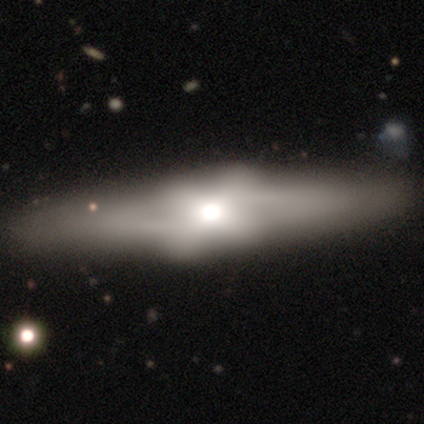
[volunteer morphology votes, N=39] Smooth or featured?
  - featured or disk: 54% *
  - smooth: 36%
  - star or artifact: 10%
Edge-on disk?
  - yes: 67% *
  - no: 33%
Edge-on bulge?
  - rounded: 57% *
  - boxy: 43%
  - none: 0%
Merging?
  - none: 83% *
  - minor disturbance: 11%
  - major disturbance: 3%
  - merger: 3%